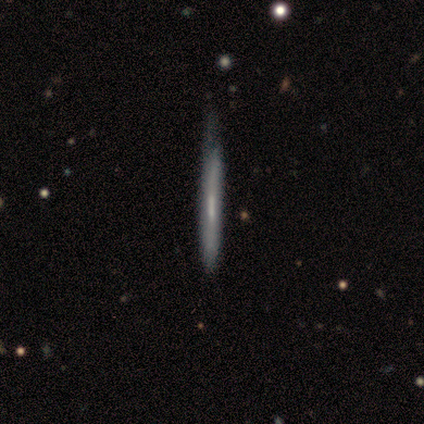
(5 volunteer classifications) This is likely a featured or disk galaxy (60%). It is clearly viewed edge-on (100%). Edge-on bulge: likely none (67%). Merging: likely none (60%).